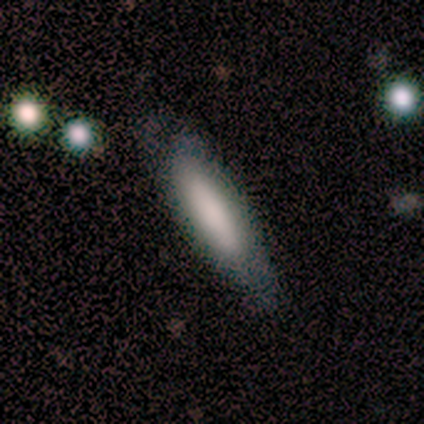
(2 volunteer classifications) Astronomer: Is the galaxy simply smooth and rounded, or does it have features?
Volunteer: featured or disk — 100%.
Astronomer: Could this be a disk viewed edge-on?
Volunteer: no — 100%.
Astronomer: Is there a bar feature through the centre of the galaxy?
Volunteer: weak — 50%, tied with no at 50%.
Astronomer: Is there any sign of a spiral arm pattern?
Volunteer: yes — 100%.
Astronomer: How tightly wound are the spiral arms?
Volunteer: tight — 100%.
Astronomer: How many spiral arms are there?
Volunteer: can't tell — 100%.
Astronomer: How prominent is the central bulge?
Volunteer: moderate — 50%, tied with small at 50%.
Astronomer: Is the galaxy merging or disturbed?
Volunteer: none — 50%, tied with minor disturbance at 50%.